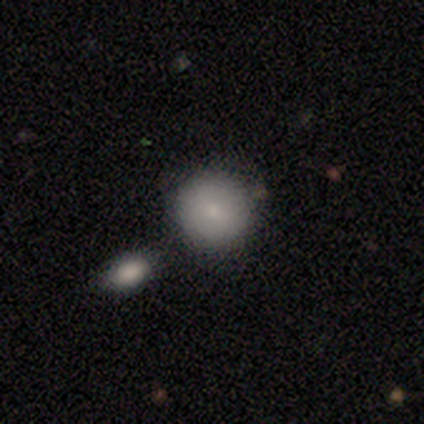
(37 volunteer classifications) Smooth or featured? 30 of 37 (81%) said smooth. How rounded? 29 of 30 (97%) said round. Merging? 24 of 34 (71%) said none.